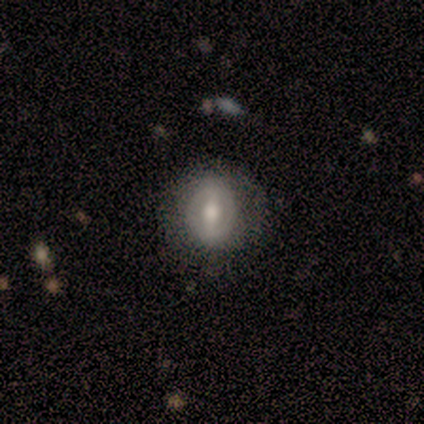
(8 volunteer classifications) Morphology: type=featured or disk (62%); edge-on=no (100%); bar=strong (40%, tied with weak); spiral arms=no (80%); bulge=moderate (40%, tied with small); merging=none (62%).